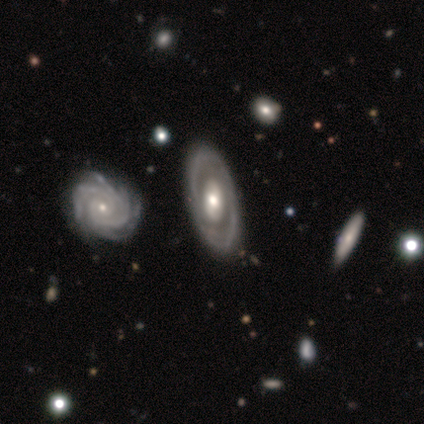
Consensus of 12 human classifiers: smooth-or-featured: featured or disk: 100% | smooth: 0% | star or artifact: 0%
  disk-edge-on: no: 100% | yes: 0%
    bar: no: 67% | strong: 17% | weak: 17%
    has-spiral-arms: yes: 50% (tied) | no: 50% (tied)
      spiral-winding: tight: 50% (tied) | medium: 50% (tied) | loose: 0%
      spiral-arm-count: 2: 67% | more than 4: 17% | can't tell: 17% | 1: 0% | 3: 0% | 4: 0%
    bulge-size: moderate: 58% | large: 33% | small: 8% | dominant: 0% | none: 0%
  merging: none: 83% | minor disturbance: 8% | merger: 8% | major disturbance: 0%